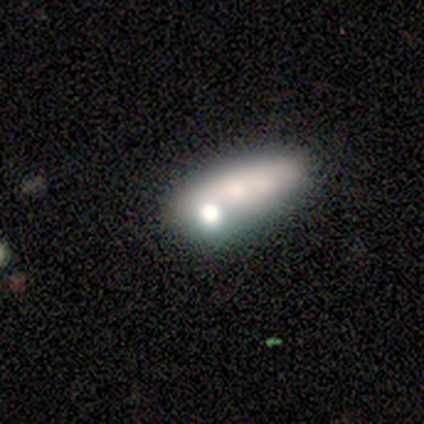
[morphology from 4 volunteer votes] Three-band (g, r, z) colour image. It shows a smooth galaxy with no disk features (50%, tied with featured or disk) that is in between round and cigar-shaped (50%, tied with cigar-shaped). Merging: merger (75%).